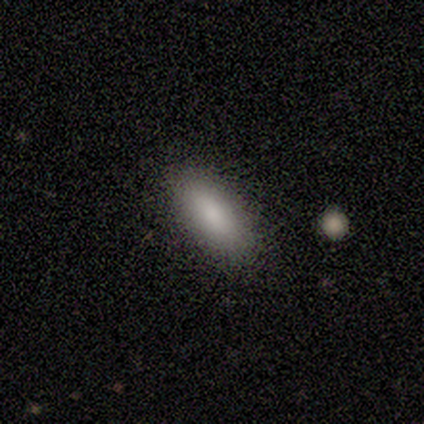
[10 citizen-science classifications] Morphology: type=smooth (90%); roundness=in between (89%); merging=none (89%).